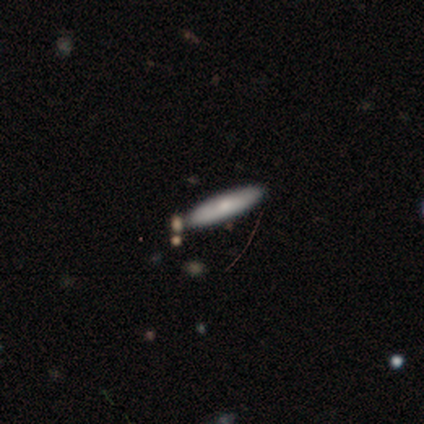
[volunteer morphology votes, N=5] smooth_or_featured: smooth (p=0.60) [alt: featured or disk p=0.40]
how_rounded: in between (p=0.67) [alt: cigar-shaped p=0.33]
merging: none (p=1.00)